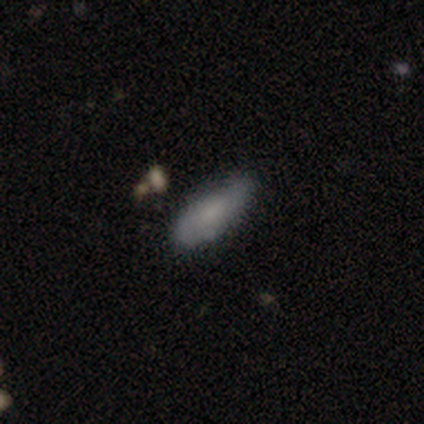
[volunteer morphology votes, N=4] Overall: smooth (50%, tied with featured or disk). How rounded: in between (100%). Merging: none (100%).